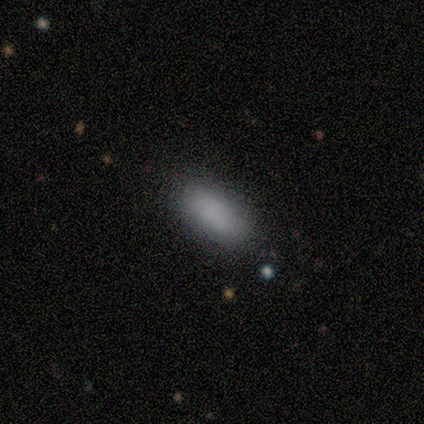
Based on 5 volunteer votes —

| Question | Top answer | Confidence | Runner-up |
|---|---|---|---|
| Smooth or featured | smooth | 100% | — |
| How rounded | in between | 80% | cigar-shaped (20%) |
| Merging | none | 80% | major disturbance (20%) |